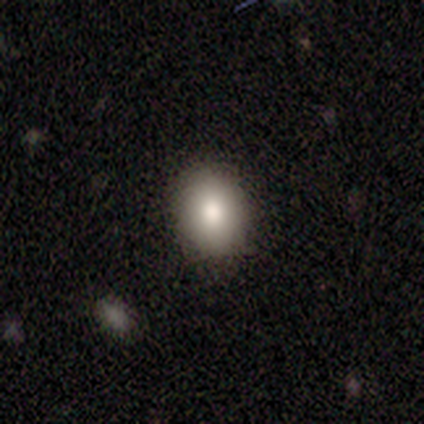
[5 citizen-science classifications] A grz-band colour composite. It shows a smooth galaxy with no disk features (60%) that is round (67%). Merging: none (100%).